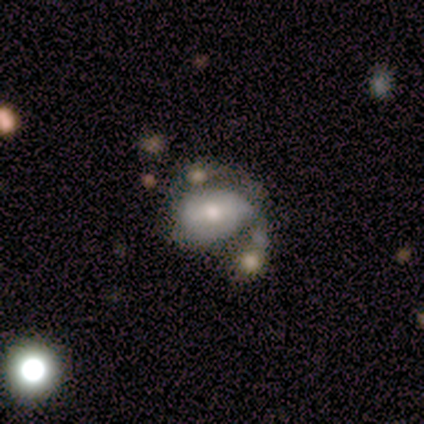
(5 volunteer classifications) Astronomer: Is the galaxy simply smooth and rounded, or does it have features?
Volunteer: smooth — 60% (runner-up: featured or disk, 40%).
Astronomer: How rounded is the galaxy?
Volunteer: in between — 67%.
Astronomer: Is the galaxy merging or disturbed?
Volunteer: minor disturbance — 60% (runner-up: merger, 40%).